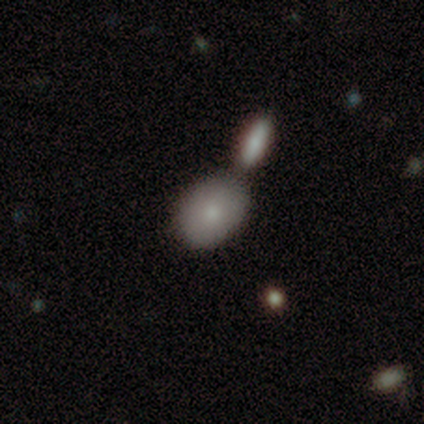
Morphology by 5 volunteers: Overall: smooth (100%). How rounded: in between (100%). Merging: merger (60%; none 40%).